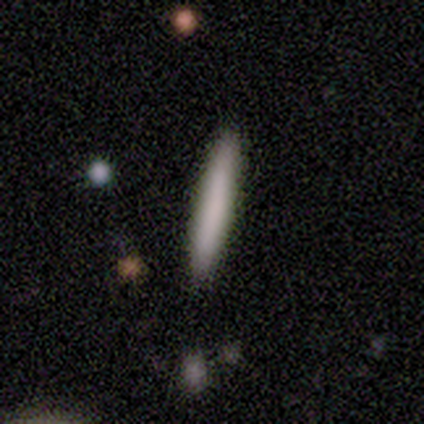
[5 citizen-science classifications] smooth_or_featured: smooth (p=1.00)
how_rounded: cigar-shaped (p=1.00)
merging: none (p=1.00)